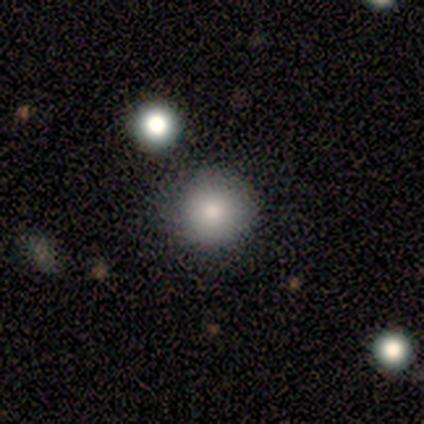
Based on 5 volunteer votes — Overall: smooth (100%). How rounded: round (100%). Merging: none (60%; minor disturbance 20%).